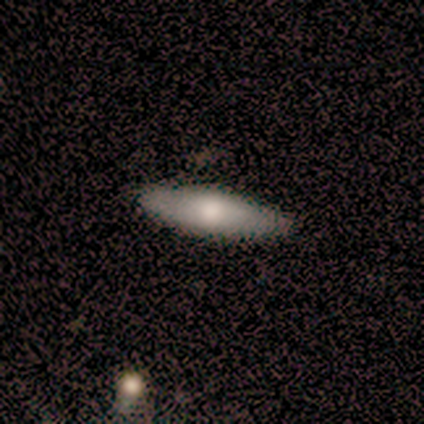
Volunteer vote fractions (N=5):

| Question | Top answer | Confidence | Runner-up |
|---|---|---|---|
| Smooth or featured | smooth | 60% | featured or disk (20%) |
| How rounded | cigar-shaped | 67% | in between (33%) |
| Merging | none | 75% | minor disturbance (25%) |